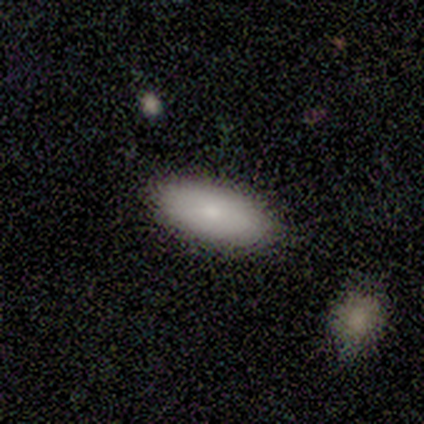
This is clearly a smooth galaxy (80%). How rounded: clearly in between (100%). Merging: clearly none (80%).